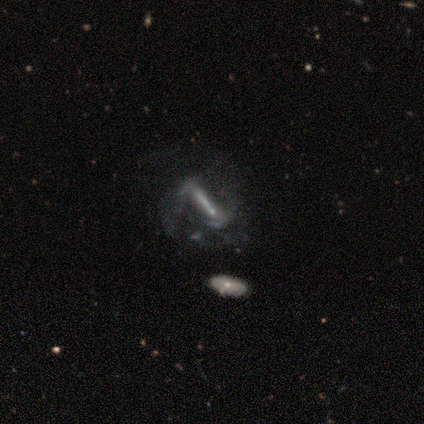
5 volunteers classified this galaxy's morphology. type=featured or disk (80%); edge-on=no (100%); bar=strong (75%); spiral arms=no (75%); bulge=small (50%); merging=major disturbance (75%).